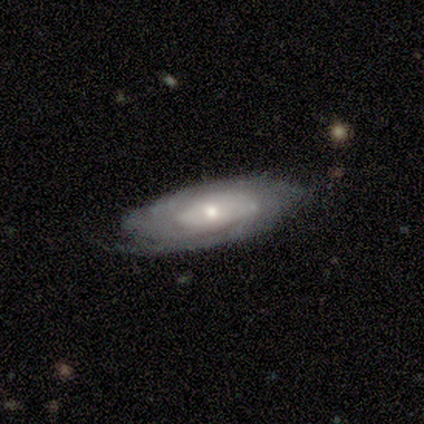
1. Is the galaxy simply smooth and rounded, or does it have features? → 100% featured or disk, 0% smooth, 0% star or artifact.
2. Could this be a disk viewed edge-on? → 100% no, 0% yes.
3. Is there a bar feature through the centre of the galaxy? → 60% no, 40% strong, 0% weak.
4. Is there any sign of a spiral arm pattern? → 80% yes, 20% no.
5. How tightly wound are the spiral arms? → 100% tight, 0% medium, 0% loose.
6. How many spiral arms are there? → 100% can't tell, 0% 1, 0% 2, 0% 3, 0% 4, 0% more than 4.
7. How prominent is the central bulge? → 80% small, 20% large, 0% dominant, 0% moderate, 0% none.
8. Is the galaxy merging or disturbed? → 80% none, 20% minor disturbance, 0% major disturbance, 0% merger.